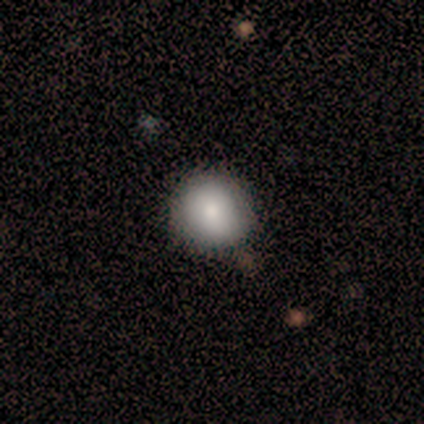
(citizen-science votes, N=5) Overall: smooth (100%). How rounded: round (100%). Merging: none (100%).